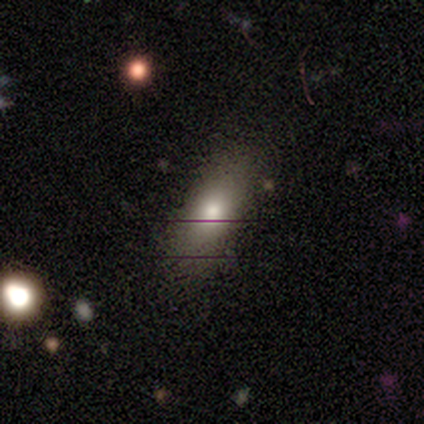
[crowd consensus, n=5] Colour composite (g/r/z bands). It shows a smooth galaxy with no disk features (60%) that is in between round and cigar-shaped (67%). Merging: none (100%).